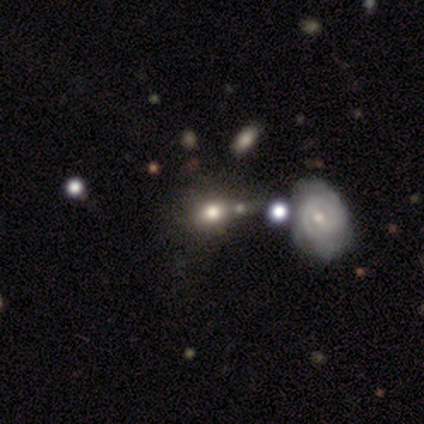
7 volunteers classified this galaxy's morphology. Smooth or featured? smooth (71%)
How rounded? round (80%)
Merging? minor disturbance (57%)